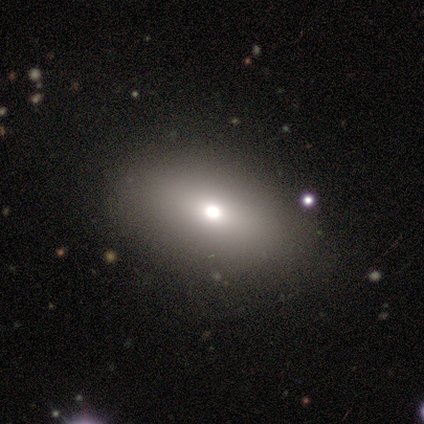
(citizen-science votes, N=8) This appears to be a smooth galaxy with no disk features (50%) that is in between round and cigar-shaped (75%). Merging: none (83%).